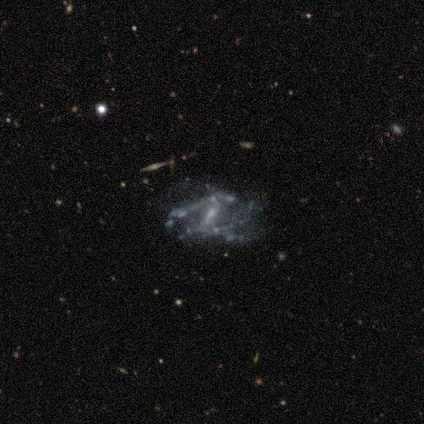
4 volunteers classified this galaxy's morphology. Volunteers were most divided on "bar": weak: 75%, strong: 25%, no: 0%. More confident: smooth or featured — featured or disk (100%); edge-on disk — no (100%); merging — none (100%); spiral arms — no (75%); bulge size — small (75%).